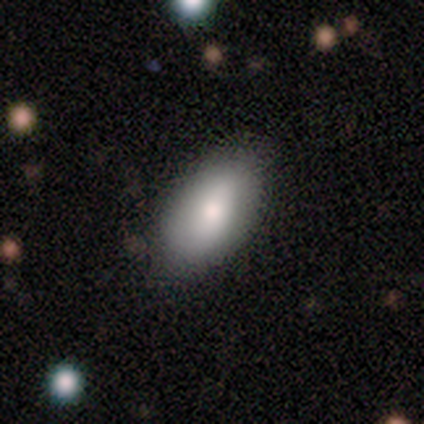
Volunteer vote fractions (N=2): This is clearly a smooth galaxy (100%). How rounded: clearly in between (100%). Merging: possibly none (50%, tied with minor disturbance).